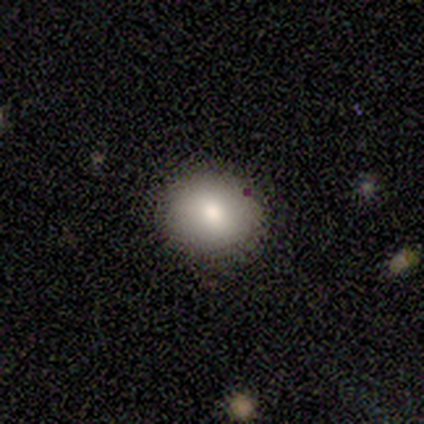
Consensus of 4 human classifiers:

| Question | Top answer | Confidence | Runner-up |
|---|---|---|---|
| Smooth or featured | smooth | 75% | star or artifact (25%) |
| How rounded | round | 67% | in between (33%) |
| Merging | none | 100% | — |